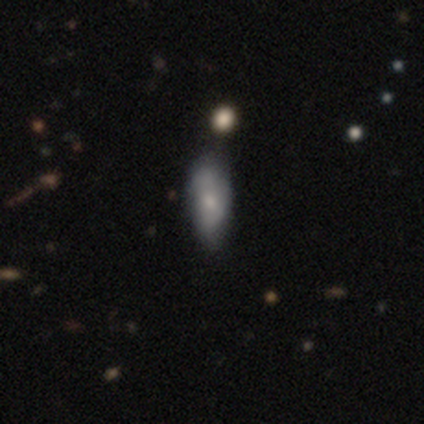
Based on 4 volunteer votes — This is possibly a smooth galaxy (50%, tied with featured or disk). How rounded: possibly in between (50%, tied with cigar-shaped). Merging: possibly none (50%, tied with minor disturbance).